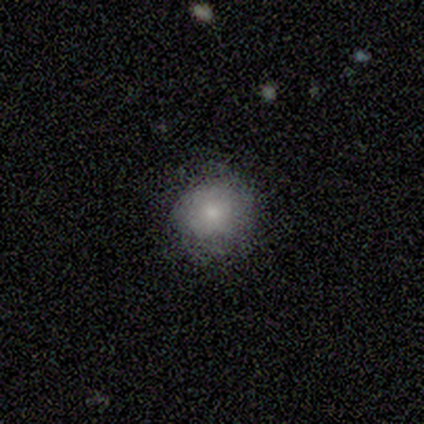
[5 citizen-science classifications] Smooth or featured? 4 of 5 (80%) said smooth. How rounded? 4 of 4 (100%) said round. Merging? 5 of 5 (100%) said none.